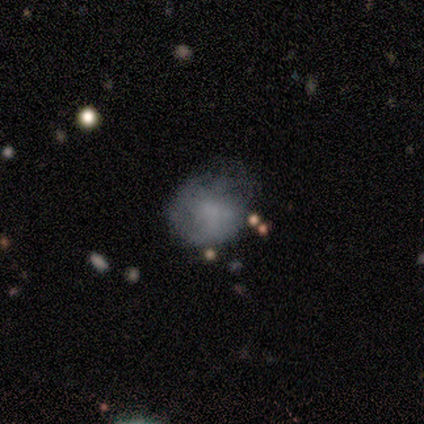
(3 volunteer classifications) A featured or disk galaxy (67%) with no bar (100%), tight (100%) spiral arms (50%, tied with no) and a large central bulge (50%, tied with none). Merging: minor disturbance (67%).